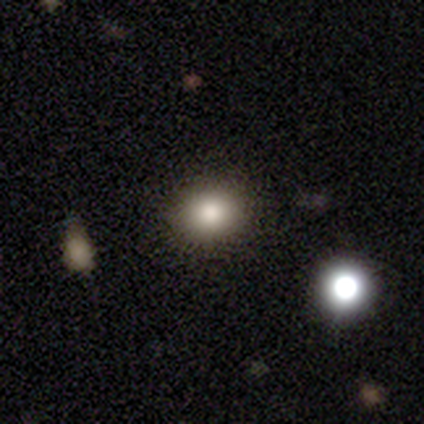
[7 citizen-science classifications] smooth 86%, star or artifact 14%, featured or disk 0%. Down the decision tree: how rounded — round (83%); merging — none (83%).